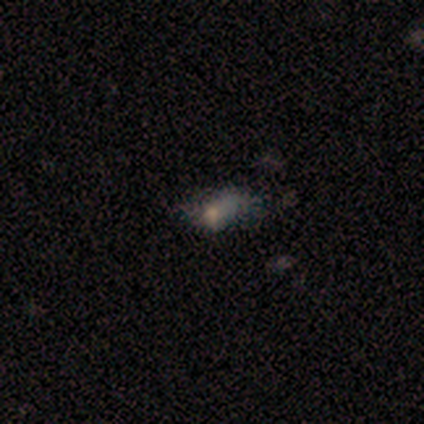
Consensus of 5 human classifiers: Morphology: type=smooth (80%); roundness=in between (100%); merging=major disturbance (75%).